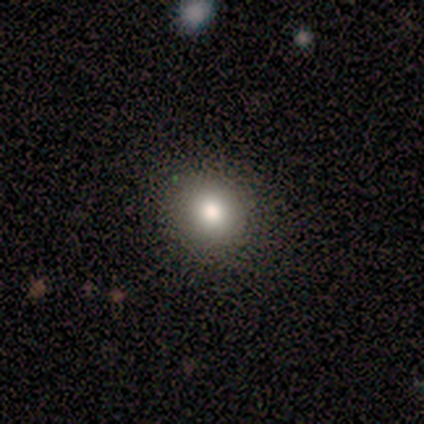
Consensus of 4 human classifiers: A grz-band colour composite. It shows a smooth galaxy with no disk features (75%) that is round (100%). Merging: none (100%).